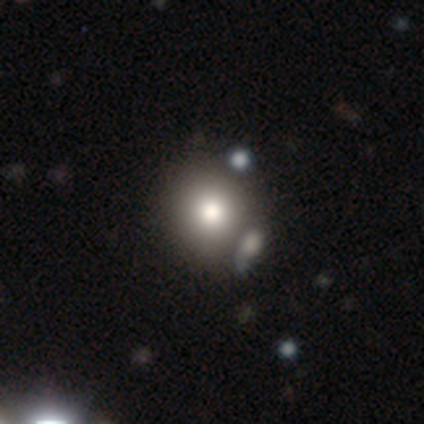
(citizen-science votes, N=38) Smooth or featured? smooth (82%)
How rounded? round (87%)
Merging? none (53%)